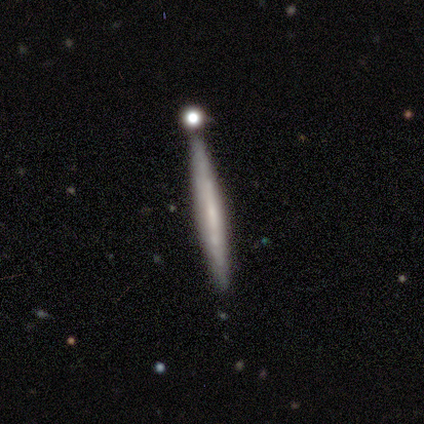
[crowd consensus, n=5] Overall: featured or disk (60%; smooth 40%). Edge-on disk: yes (100%). Edge-on bulge: none (67%; rounded 33%). Merging: none (100%).